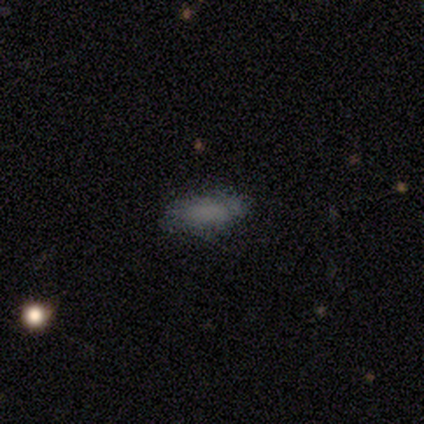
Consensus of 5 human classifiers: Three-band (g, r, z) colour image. It shows a smooth galaxy with no disk features (100%) that is in between round and cigar-shaped (100%). Merging: none (60%).